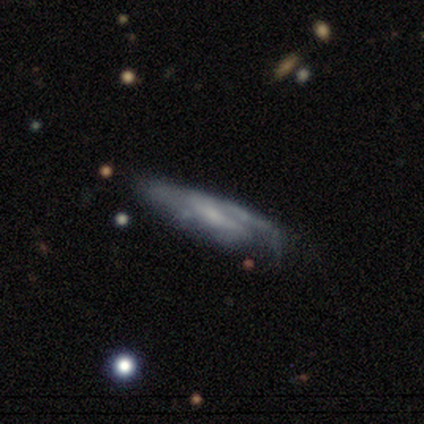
Q: Smooth or featured?
A: featured or disk (77%); runner-up: smooth (18%)
Q: Edge-on disk?
A: yes (63%); runner-up: no (37%)
Q: Edge-on bulge?
A: none (74%); runner-up: rounded (26%)
Q: Merging?
A: none (57%); runner-up: minor disturbance (24%)